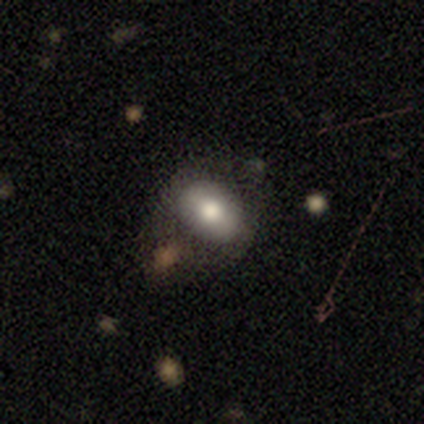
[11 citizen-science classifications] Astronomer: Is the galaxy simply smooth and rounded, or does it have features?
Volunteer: smooth — 82%.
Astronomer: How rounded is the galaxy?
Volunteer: in between — 89%.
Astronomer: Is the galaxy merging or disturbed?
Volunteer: none — 67%.